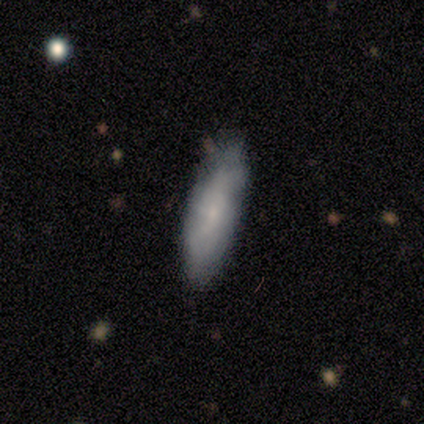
Volunteers were most divided on "how rounded": cigar-shaped: 75%, in between: 25%, round: 0%. More confident: smooth or featured — smooth (80%); merging — none (80%).